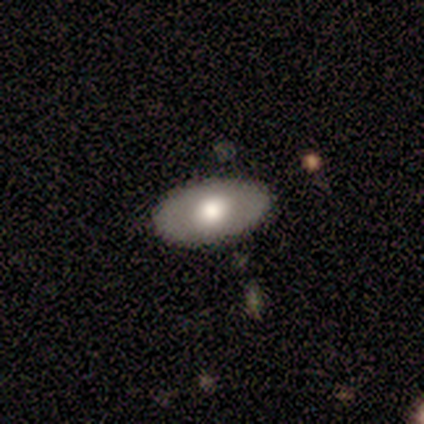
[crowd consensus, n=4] Morphology: type=smooth (50%, tied with featured or disk); roundness=in between (100%); merging=none (100%).